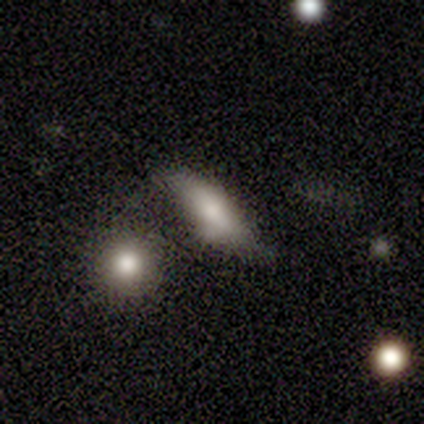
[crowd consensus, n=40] This appears to be a smooth galaxy with no disk features (70%) that is cigar-shaped (57%). Merging: none (55%).